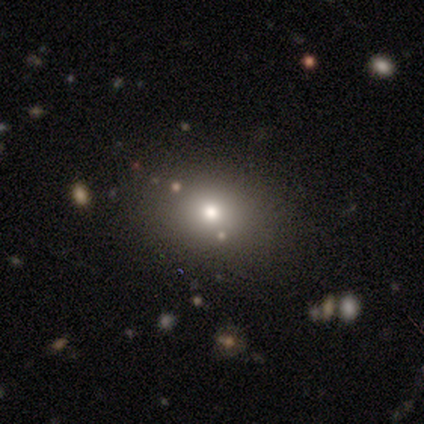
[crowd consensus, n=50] Smooth or featured?
  - smooth: 64% *
  - star or artifact: 24%
  - featured or disk: 12%
How rounded?
  - round: 56% *
  - in between: 44%
  - cigar-shaped: 0%
Merging?
  - none: 87% *
  - minor disturbance: 8%
  - major disturbance: 3%
  - merger: 3%